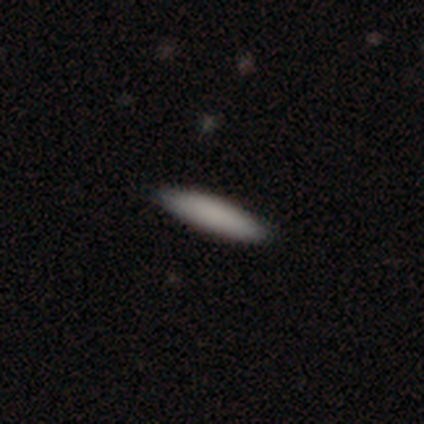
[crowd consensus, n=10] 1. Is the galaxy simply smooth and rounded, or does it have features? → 100% smooth, 0% featured or disk, 0% star or artifact.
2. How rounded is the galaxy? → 90% cigar-shaped, 10% in between, 0% round.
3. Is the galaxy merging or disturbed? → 80% none, 10% minor disturbance, 10% merger, 0% major disturbance.